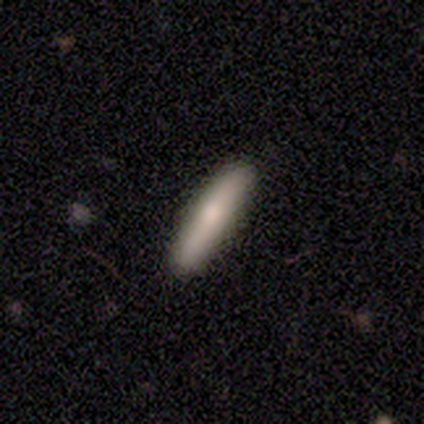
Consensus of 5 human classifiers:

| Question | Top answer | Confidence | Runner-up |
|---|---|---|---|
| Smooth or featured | smooth | 100% | — |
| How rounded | cigar-shaped | 80% | in between (20%) |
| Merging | none | 80% | minor disturbance (20%) |